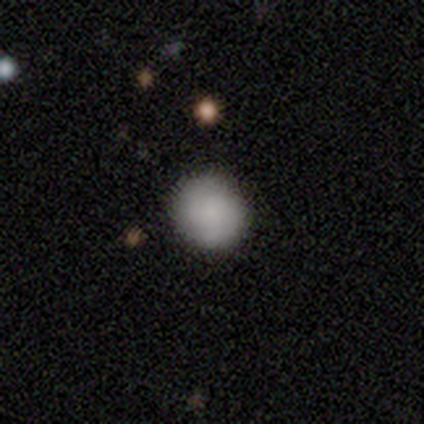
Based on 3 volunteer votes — This is clearly a smooth galaxy (100%). How rounded: clearly round (100%). Merging: clearly none (100%).